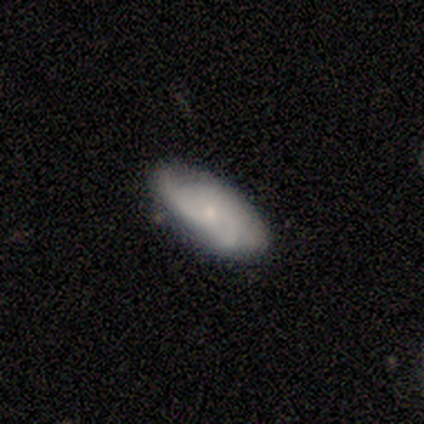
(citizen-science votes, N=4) A featured or disk galaxy (75%) with no bar (67%), medium (67%) spiral arms (100%) and a small central bulge (100%). Merging: none (100%).